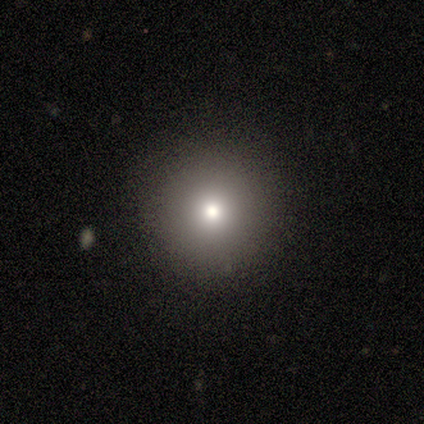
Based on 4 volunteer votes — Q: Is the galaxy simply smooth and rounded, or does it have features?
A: smooth — 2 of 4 (50%, tied with star or artifact).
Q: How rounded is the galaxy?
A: round — 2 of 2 (100%).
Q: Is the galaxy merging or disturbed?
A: none — 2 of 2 (100%).